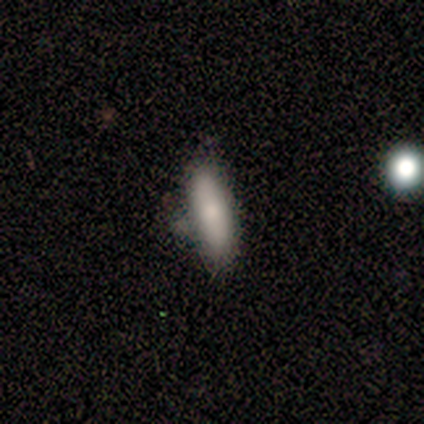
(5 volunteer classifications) smooth 80%, star or artifact 20%, featured or disk 0%. Down the decision tree: how rounded — cigar-shaped (75%); merging — none (75%).